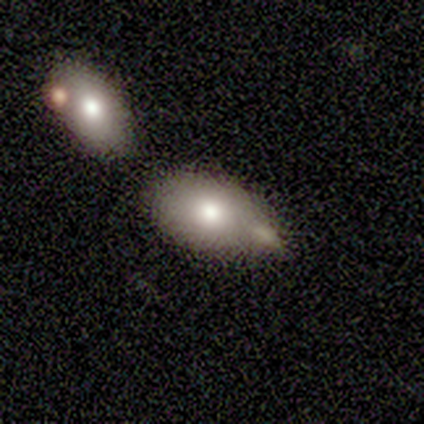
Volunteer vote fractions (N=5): Smooth or featured: smooth — 80% (featured or disk — 20%)
How rounded: in between — 75% (round — 25%)
Merging: minor disturbance — 60% (none — 40%)